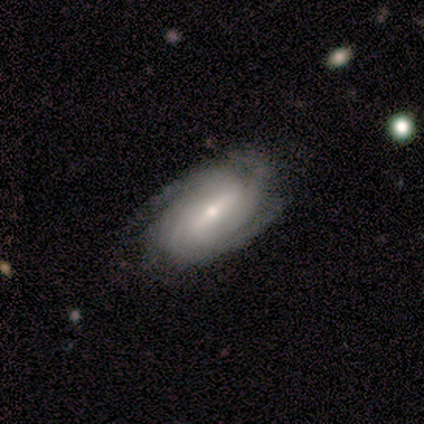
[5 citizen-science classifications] Smooth or featured?
  - featured or disk: 100% *
  - smooth: 0%
  - star or artifact: 0%
Edge-on disk?
  - no: 100% *
  - yes: 0%
Bar?
  - strong: 40% * (tied)
  - no: 40% * (tied)
  - weak: 20%
Spiral arms?
  - yes: 100% *
  - no: 0%
Spiral winding?
  - tight: 80% *
  - loose: 20%
  - medium: 0%
Spiral arm count?
  - 4: 40% * (tied)
  - can't tell: 40% * (tied)
  - 2: 20%
  - 1: 0%
  - 3: 0%
  - more than 4: 0%
Bulge size?
  - small: 100% *
  - dominant: 0%
  - large: 0%
  - moderate: 0%
  - none: 0%
Merging?
  - none: 100% *
  - minor disturbance: 0%
  - major disturbance: 0%
  - merger: 0%